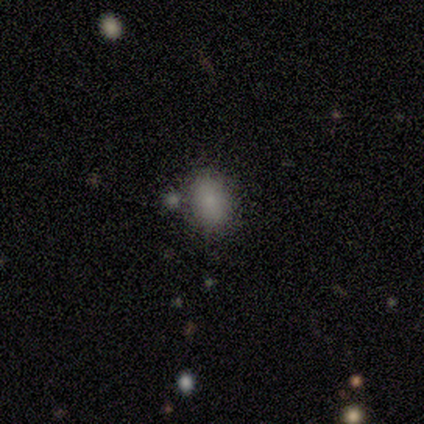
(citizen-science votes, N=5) Volunteers were most divided on "how rounded": in between: 67%, round: 33%, cigar-shaped: 0%. More confident: merging — none (100%); smooth or featured — smooth (60%).